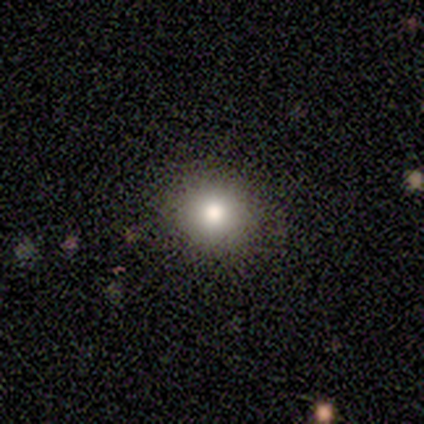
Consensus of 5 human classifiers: Smooth or featured?
  - smooth: 80% *
  - star or artifact: 20%
  - featured or disk: 0%
How rounded?
  - round: 75% *
  - in between: 25%
  - cigar-shaped: 0%
Merging?
  - none: 100% *
  - minor disturbance: 0%
  - major disturbance: 0%
  - merger: 0%